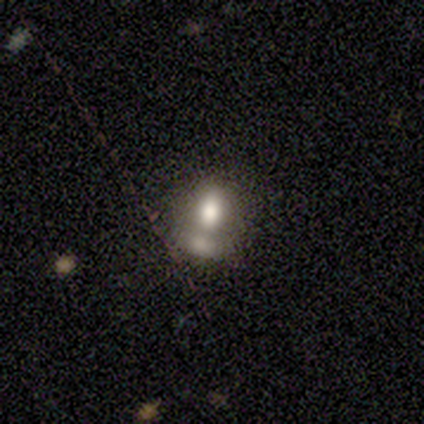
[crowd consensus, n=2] Smooth or featured?
  - smooth: 50% * (tied)
  - featured or disk: 50% * (tied)
  - star or artifact: 0%
How rounded?
  - in between: 100% *
  - round: 0%
  - cigar-shaped: 0%
Merging?
  - none: 50% * (tied)
  - minor disturbance: 50% * (tied)
  - major disturbance: 0%
  - merger: 0%